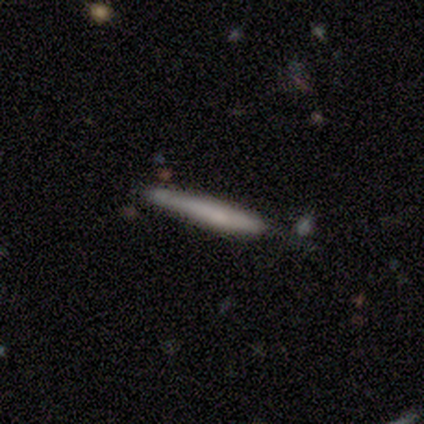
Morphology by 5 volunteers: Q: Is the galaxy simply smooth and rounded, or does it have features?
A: smooth — 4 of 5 (80%).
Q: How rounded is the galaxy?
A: cigar-shaped — 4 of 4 (100%).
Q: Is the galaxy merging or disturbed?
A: none — 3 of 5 (60%).